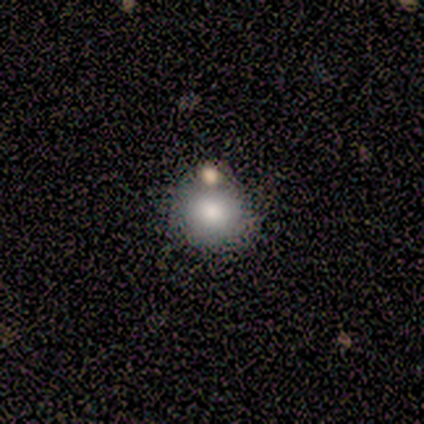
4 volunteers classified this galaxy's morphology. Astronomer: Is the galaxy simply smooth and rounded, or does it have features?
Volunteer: featured or disk — 50%.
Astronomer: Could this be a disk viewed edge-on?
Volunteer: no — 100%.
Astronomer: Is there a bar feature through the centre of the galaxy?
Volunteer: no — 100%.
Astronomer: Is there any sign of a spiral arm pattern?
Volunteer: no — 100%.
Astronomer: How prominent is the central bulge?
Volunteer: large — 50%, tied with none at 50%.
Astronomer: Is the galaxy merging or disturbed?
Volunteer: none — 67%.